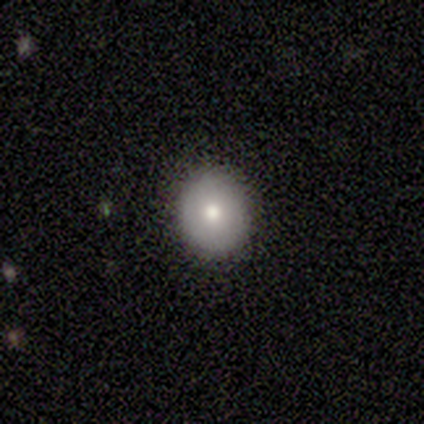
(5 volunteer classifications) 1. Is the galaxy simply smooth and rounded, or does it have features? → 80% smooth, 20% star or artifact, 0% featured or disk.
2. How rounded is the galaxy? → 50% round (tied), 50% in between (tied), 0% cigar-shaped.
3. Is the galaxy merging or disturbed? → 100% none, 0% minor disturbance, 0% major disturbance, 0% merger.